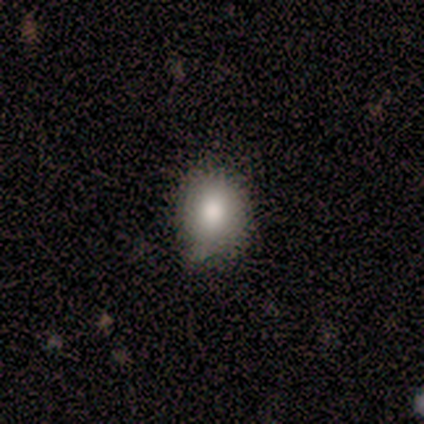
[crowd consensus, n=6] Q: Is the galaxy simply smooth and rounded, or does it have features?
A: smooth — 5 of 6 (83%).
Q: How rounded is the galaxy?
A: round — 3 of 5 (60%).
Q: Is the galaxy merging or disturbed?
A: none — 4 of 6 (67%).